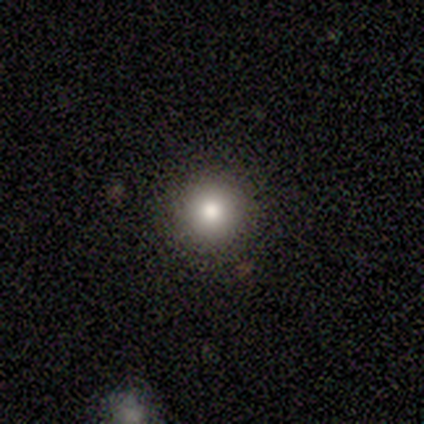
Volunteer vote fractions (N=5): smooth-or-featured: smooth: 100% | featured or disk: 0% | star or artifact: 0%
  how-rounded: round: 100% | in between: 0% | cigar-shaped: 0%
  merging: none: 100% | minor disturbance: 0% | major disturbance: 0% | merger: 0%